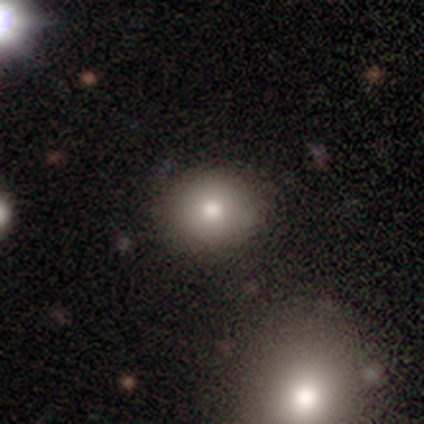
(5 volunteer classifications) smooth_or_featured: smooth (p=0.40) [tied with: star or artifact p=0.40]
how_rounded: round (p=1.00)
merging: none (p=0.67) [alt: minor disturbance p=0.33]